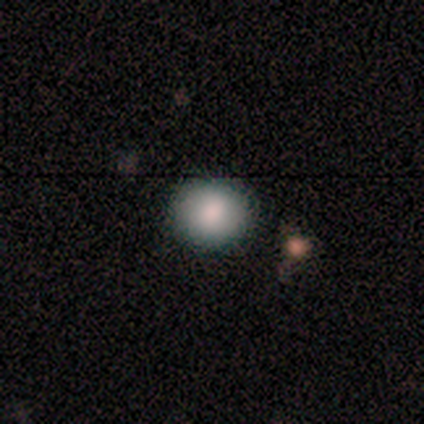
Morphology: type=smooth (83%); roundness=round (60%); merging=none (100%).